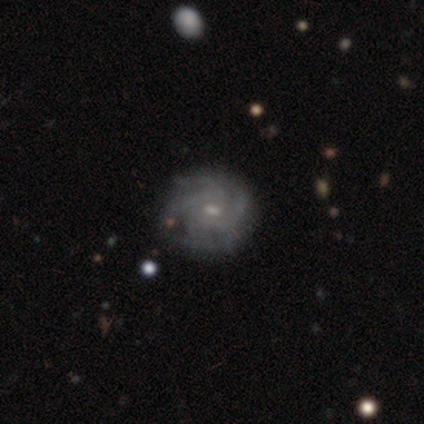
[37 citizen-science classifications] Overall: featured or disk (78%). Edge-on disk: no (100%). Bar: weak (62%; no 38%). Spiral arms: yes (97%). Spiral arm count: can't tell (43%; 4 39%). Spiral winding: tight (64%; medium 32%). Bulge size: small (52%; moderate 41%). Merging: none (67%).